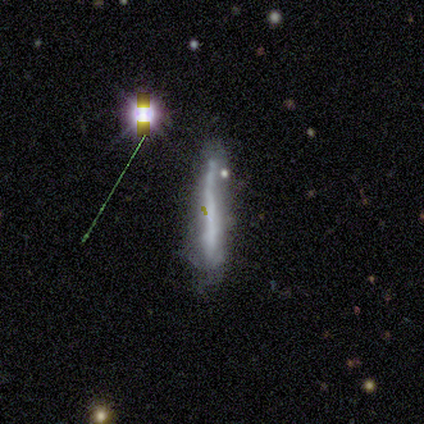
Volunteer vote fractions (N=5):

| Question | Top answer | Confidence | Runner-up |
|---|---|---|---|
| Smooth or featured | smooth | 80% | featured or disk (20%) |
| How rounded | cigar-shaped | 100% | — |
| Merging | none | 40% | tied: minor disturbance (40%) |